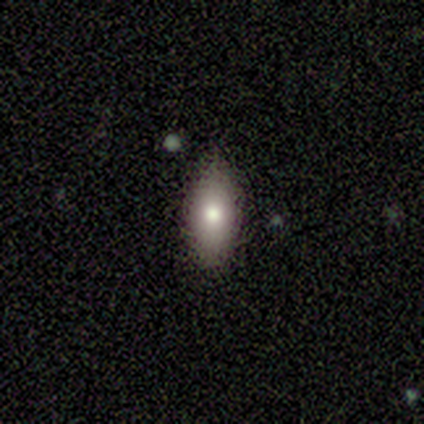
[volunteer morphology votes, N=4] Smooth or featured? 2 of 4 (50%, tied with star or artifact) said smooth. How rounded? 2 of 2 (100%) said in between. Merging? 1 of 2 (50%, tied with minor disturbance) said none.